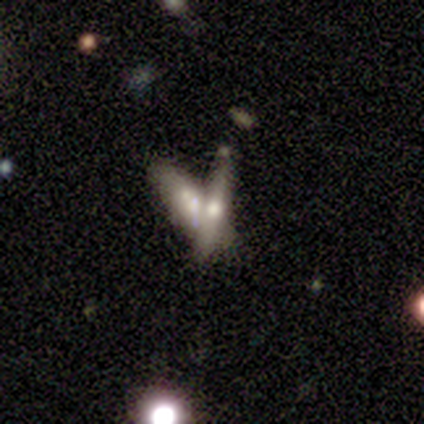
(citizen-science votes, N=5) Smooth or featured: smooth — 60% (featured or disk — 40%)
How rounded: cigar-shaped — 100%
Merging: merger — 60% (none — 40%)